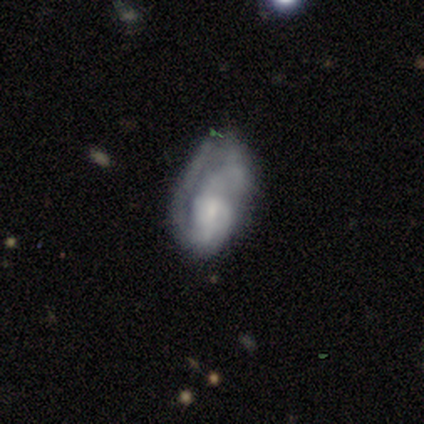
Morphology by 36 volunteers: Volunteers were most divided on "spiral arm count": can't tell: 38%, 1: 31%, 2: 31%, 3: 0%, 4: 0%, more than 4: 0%. Remaining: edge-on disk — no (96%); smooth or featured — featured or disk (72%); spiral arms — yes (64%); bar — no (56%); spiral winding — medium (50%); bulge size — small (40%); merging — none (39%).